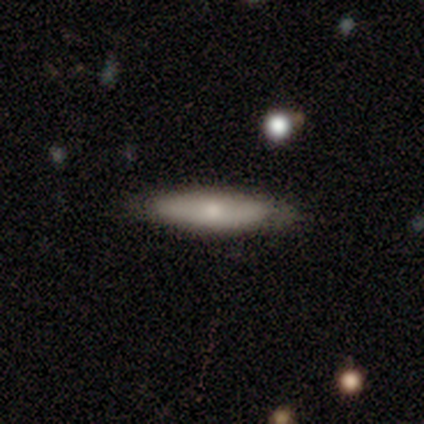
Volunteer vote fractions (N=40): A smooth galaxy with no disk features (60%) that is cigar-shaped (88%).

Vote fractions:
- Smooth or featured? smooth: 60% / featured or disk: 28% / star or artifact: 12%
- How rounded? cigar-shaped: 88% / in between: 12% / round: 0%
- Merging? none: 91% / minor disturbance: 9% / major disturbance: 0% / merger: 0%